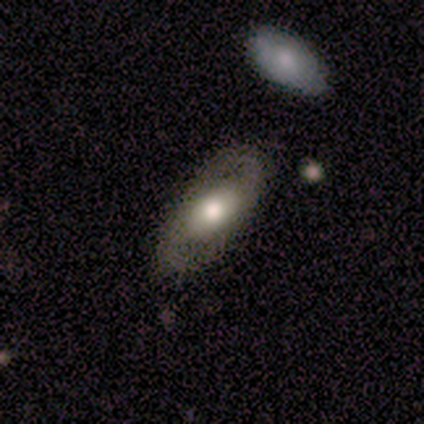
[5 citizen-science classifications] smooth_or_featured: smooth (p=0.40) [tied with: featured or disk p=0.40]
how_rounded: in between (p=1.00)
merging: none (p=0.75) [alt: minor disturbance p=0.25]